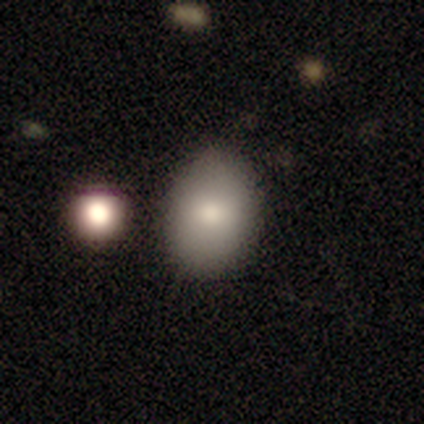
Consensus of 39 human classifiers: Morphology: type=smooth (87%); roundness=in between (62%); merging=none (69%).